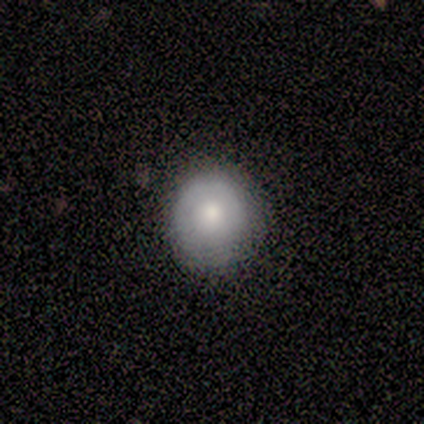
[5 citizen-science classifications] A smooth galaxy with no disk features (80%) that is round (100%). Merging: none (80%).